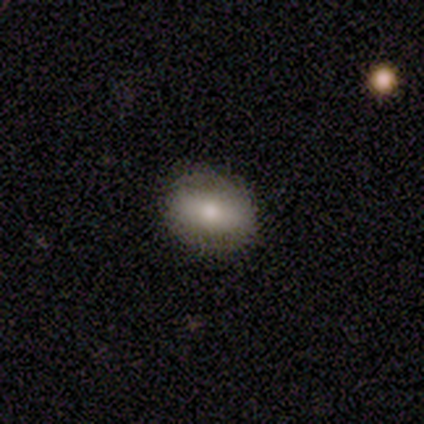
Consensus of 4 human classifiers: Smooth or featured: smooth — 50% (featured or disk — 25%)
How rounded: in between — 100%
Merging: none — 100%